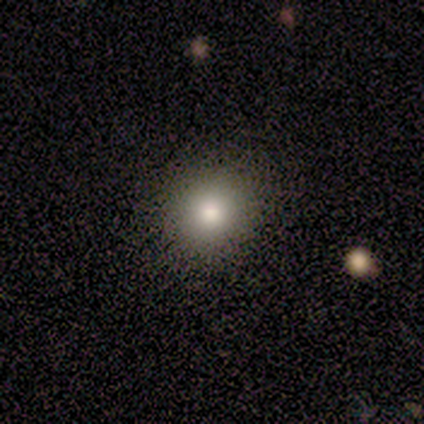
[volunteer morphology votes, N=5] Volunteers were most divided on "merging": none: 75%, minor disturbance: 25%, major disturbance: 0%, merger: 0%. More confident: how rounded — round (100%); smooth or featured — smooth (80%).